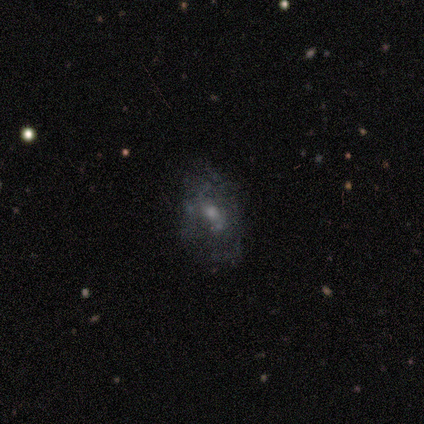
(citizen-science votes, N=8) A featured or disk galaxy (75%) with no bar (67%), tight (67%) spiral arms (50%, tied with no) and a moderate central bulge (50%). Merging: none (62%).